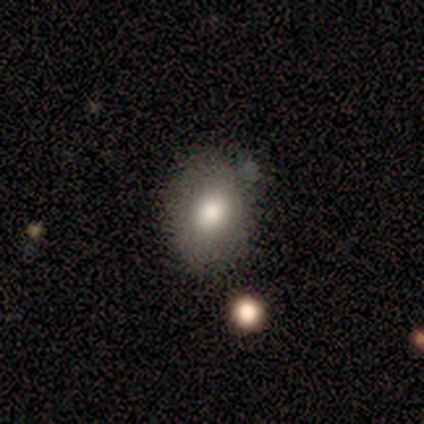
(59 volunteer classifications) Volunteers were most divided on "how rounded": in between: 68%, round: 30%, cigar-shaped: 2%. More confident: smooth or featured — smooth (85%); merging — none (67%).